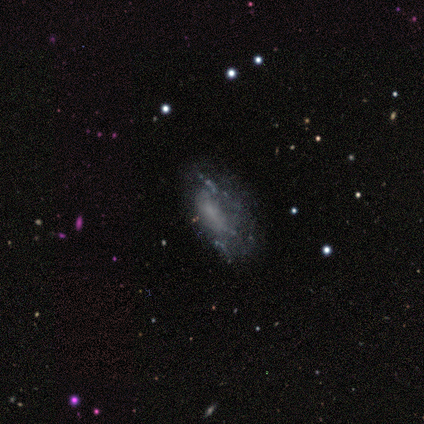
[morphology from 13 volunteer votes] A featured or disk galaxy (69%) with no bar (100%), no spiral arms (89%) and no central bulge (67%). Merging: major disturbance (45%).